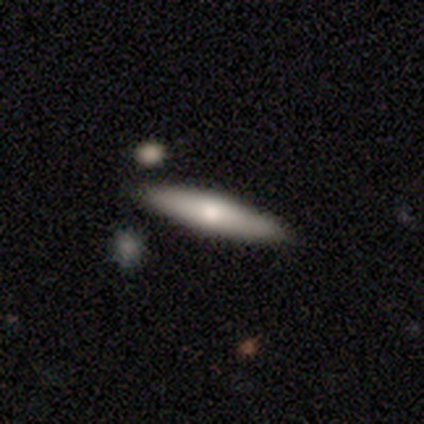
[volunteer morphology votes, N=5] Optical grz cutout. It shows a smooth galaxy with no disk features (100%) that is cigar-shaped (100%). Merging: none (100%).